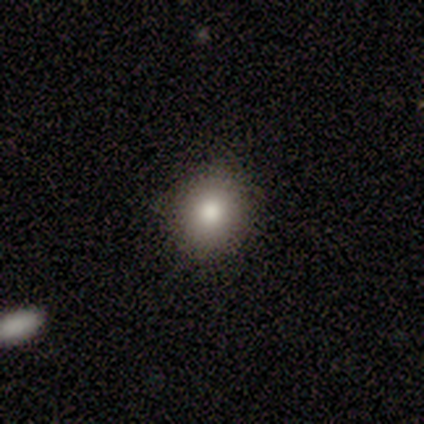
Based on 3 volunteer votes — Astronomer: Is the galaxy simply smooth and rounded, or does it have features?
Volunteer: featured or disk — 67%.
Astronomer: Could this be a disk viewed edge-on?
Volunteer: no — 100%.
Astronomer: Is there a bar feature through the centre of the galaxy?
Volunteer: no — 100%.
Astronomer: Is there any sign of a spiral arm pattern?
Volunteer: no — 100%.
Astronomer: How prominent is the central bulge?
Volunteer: large — 50%, tied with moderate at 50%.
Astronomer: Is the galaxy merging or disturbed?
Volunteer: none — 50%, tied with minor disturbance at 50%.